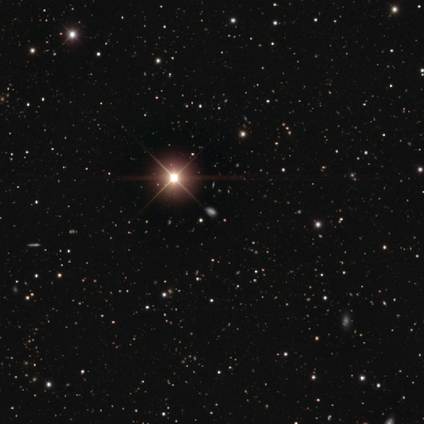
Overall: star or artifact (74%).